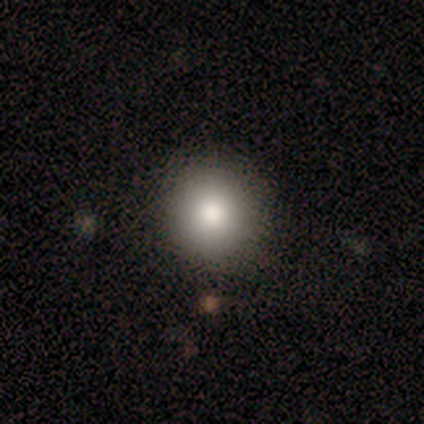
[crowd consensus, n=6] This is clearly a smooth galaxy (83%). How rounded: clearly round (100%). Merging: clearly none (83%).